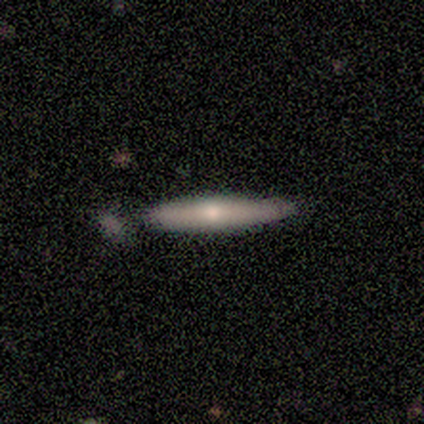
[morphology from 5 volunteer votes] Smooth or featured? 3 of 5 (60%) said smooth. How rounded? 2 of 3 (67%) said cigar-shaped. Merging? 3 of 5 (60%) said none.